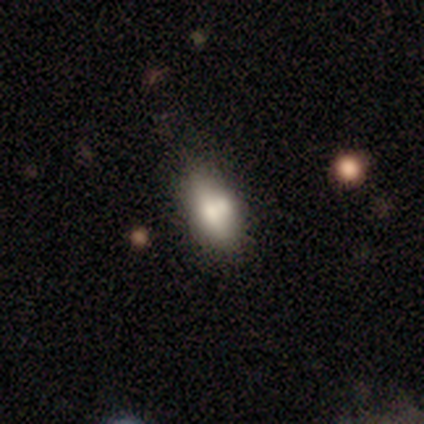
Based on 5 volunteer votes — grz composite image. It shows a smooth galaxy with no disk features (60%) that is in between round and cigar-shaped (100%). Merging: none (40%, tied with merger).